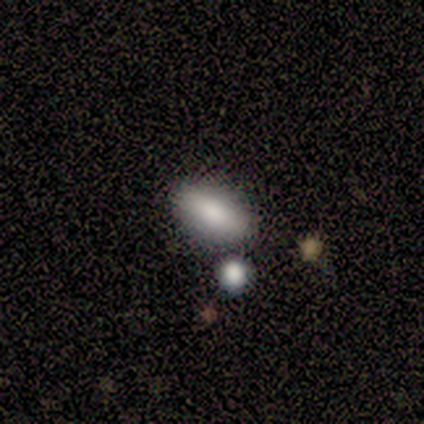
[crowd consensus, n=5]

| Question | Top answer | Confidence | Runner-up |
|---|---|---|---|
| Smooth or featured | smooth | 40% | tied: star or artifact (40%) |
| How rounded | in between | 100% | — |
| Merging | none | 100% | — |